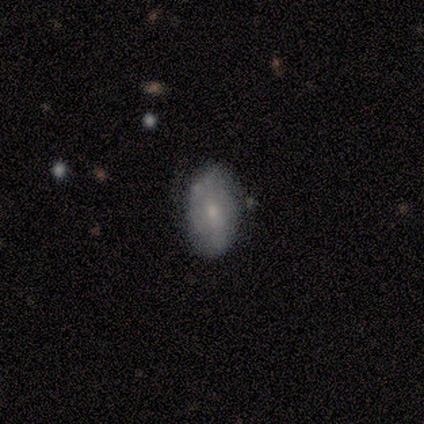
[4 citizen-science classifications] Morphology: type=smooth (100%); roundness=in between (100%); merging=none (75%).